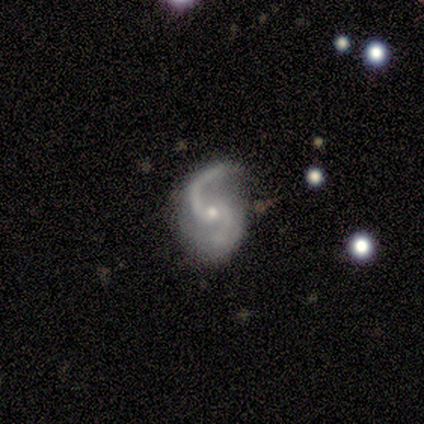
This is clearly a featured or disk galaxy (100%). It is clearly not viewed edge-on (100%). Bar: clearly no (100%). Spiral arm pattern: clearly yes (100%). Spiral arm count: clearly 2 (100%). Spiral winding: clearly loose (80%). Central bulge: clearly small (80%). Merging: likely none (60%).